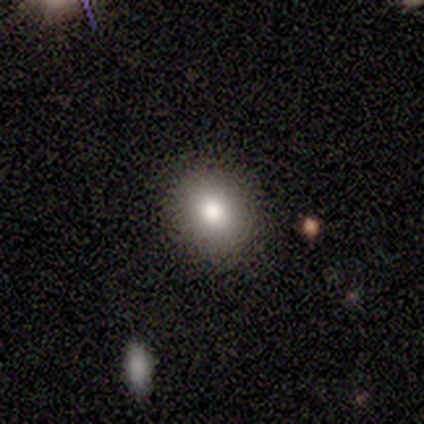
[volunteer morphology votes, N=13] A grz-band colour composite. It shows a smooth galaxy with no disk features (77%) that is round (70%). Merging: none (92%).